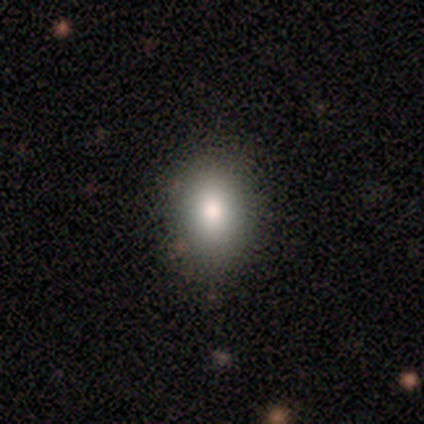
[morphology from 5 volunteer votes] smooth_or_featured: smooth (p=0.80) [alt: star or artifact p=0.20]
how_rounded: in between (p=0.75) [alt: round p=0.25]
merging: none (p=0.75) [alt: minor disturbance p=0.25]